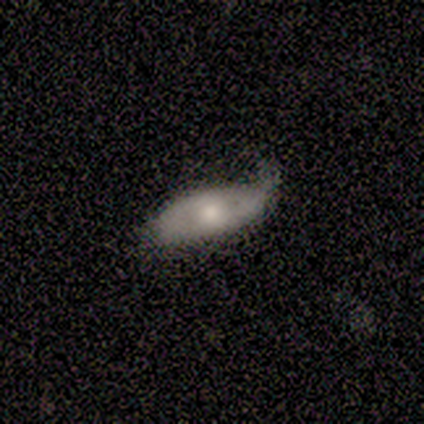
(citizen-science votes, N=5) A smooth galaxy with no disk features (60%) that is in between round and cigar-shaped (100%). Merging: none (60%).